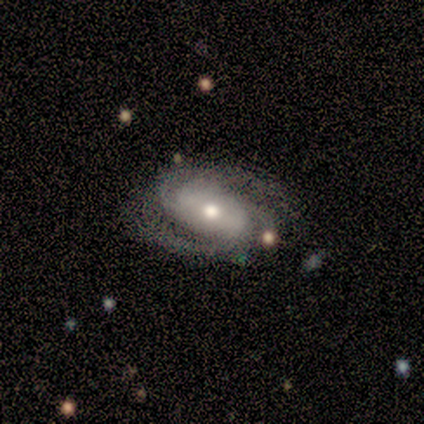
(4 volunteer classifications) Overall: featured or disk (75%). Edge-on disk: no (100%). Bar: no (67%; weak 33%). Spiral arms: yes (100%). Spiral arm count: 2 (67%; 3 33%). Spiral winding: medium (67%; loose 33%). Bulge size: moderate (67%; small 33%). Merging: none (75%).